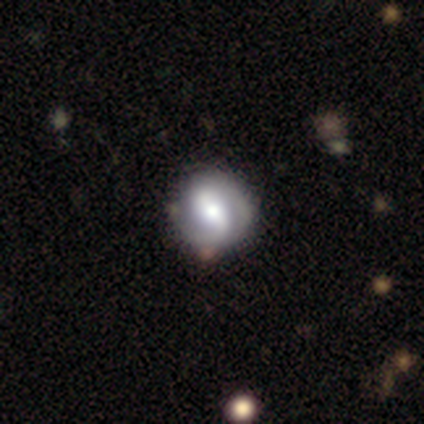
Smooth or featured? 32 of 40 (80%) said featured or disk. Edge-on disk? 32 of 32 (100%) said no. Bar? 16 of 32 (50%) said strong. Spiral arms? 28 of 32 (88%) said yes. Spiral winding? 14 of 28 (50%) said tight. Spiral arm count? 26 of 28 (93%) said 2. Bulge size? 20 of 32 (62%) said moderate. Merging? 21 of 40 (52%) said none.